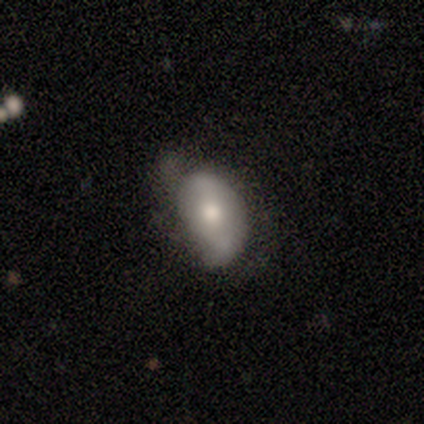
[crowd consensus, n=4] This appears to be a featured or disk galaxy (75%) with no bar (100%), 2 (67%) tight (33%, tied with medium and loose) spiral arms (100%) and a small central bulge (67%). Merging: none (50%).